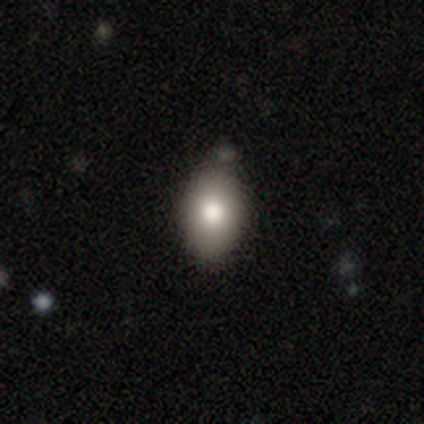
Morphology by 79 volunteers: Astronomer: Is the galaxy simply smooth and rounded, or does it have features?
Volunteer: smooth — 84%.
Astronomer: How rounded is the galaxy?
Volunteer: in between — 85%.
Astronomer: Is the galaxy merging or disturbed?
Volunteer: none — 40% (runner-up: merger, 16%).